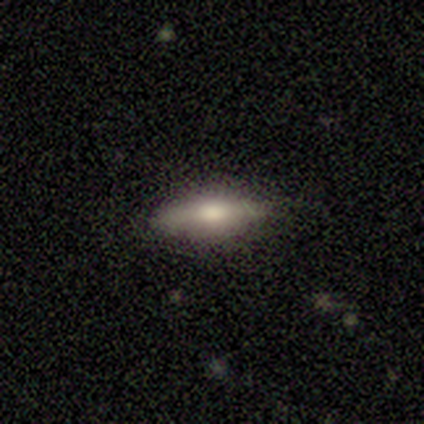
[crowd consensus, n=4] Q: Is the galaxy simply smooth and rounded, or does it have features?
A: smooth — 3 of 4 (75%).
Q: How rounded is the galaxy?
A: in between — 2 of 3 (67%).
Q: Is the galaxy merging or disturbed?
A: none — 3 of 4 (75%).